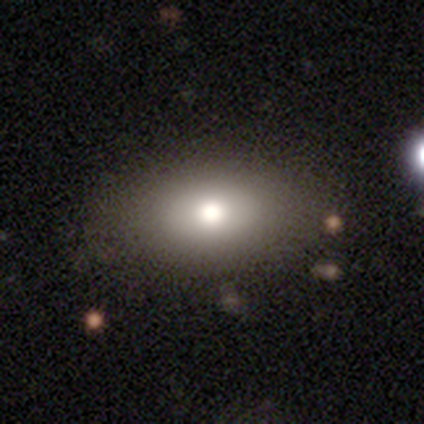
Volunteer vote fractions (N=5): smooth 100%, featured or disk 0%, star or artifact 0%. Down the decision tree: how rounded — in between (80%); merging — none (60%).